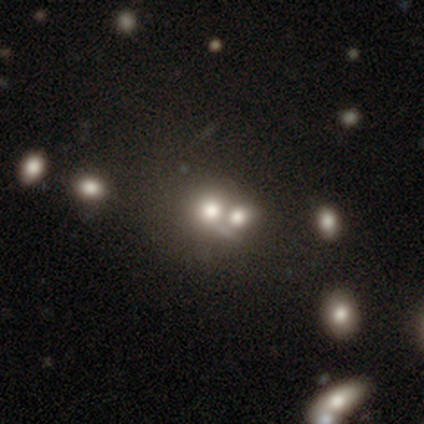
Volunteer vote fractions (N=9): Morphology: type=smooth (56%); roundness=round (100%); merging=merger (67%).